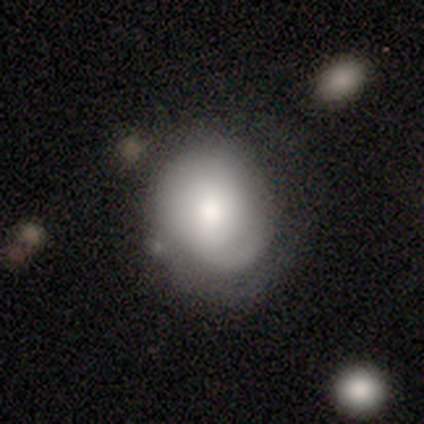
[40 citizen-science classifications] Smooth or featured: smooth — 52% (featured or disk — 40%)
How rounded: round — 67% (in between — 33%)
Merging: none — 62% (minor disturbance — 24%)